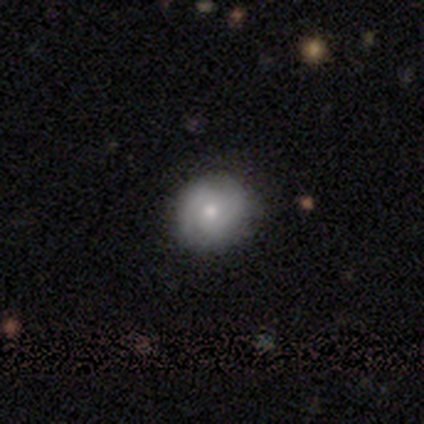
Volunteers were most divided on "smooth or featured": smooth: 60%, featured or disk: 40%, star or artifact: 0%. More confident: how rounded — round (100%); merging — none (100%).